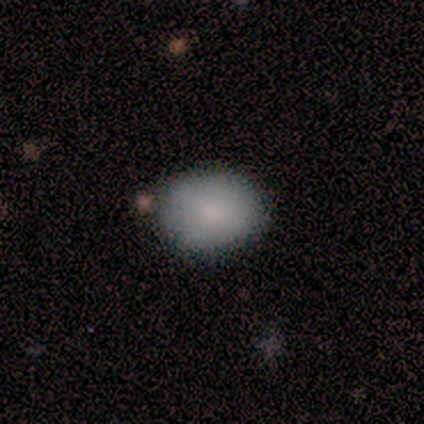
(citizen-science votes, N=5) Smooth or featured?
  - smooth: 80% *
  - star or artifact: 20%
  - featured or disk: 0%
How rounded?
  - in between: 75% *
  - round: 25%
  - cigar-shaped: 0%
Merging?
  - none: 50% *
  - minor disturbance: 25%
  - merger: 25%
  - major disturbance: 0%